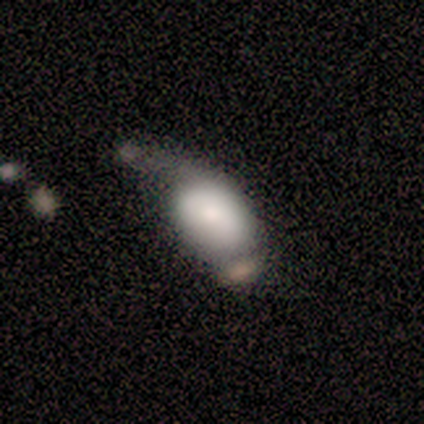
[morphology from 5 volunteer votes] Overall: smooth (40%, tied with featured or disk). How rounded: in between (100%). Merging: none (50%; minor disturbance 25%).